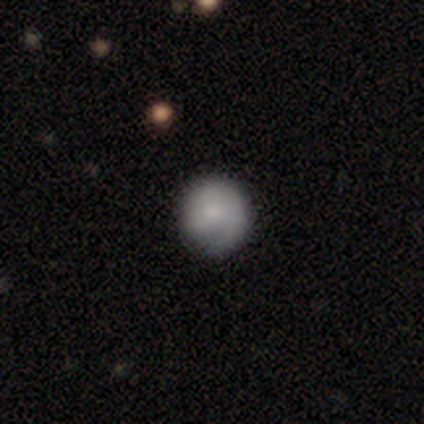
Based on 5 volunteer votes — Morphology: type=smooth (100%); roundness=round (100%); merging=none (60%).